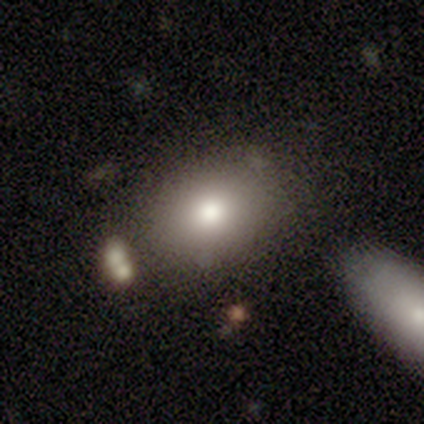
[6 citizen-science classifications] Smooth or featured? smooth (67%)
How rounded? in between (75%)
Merging? none (75%)